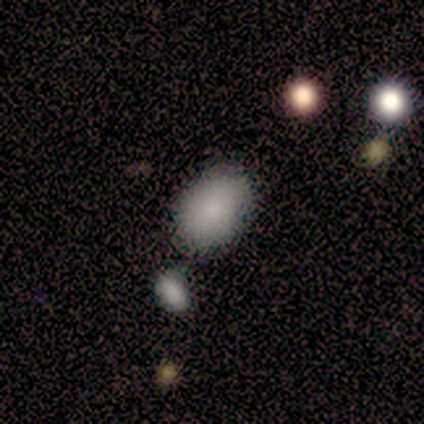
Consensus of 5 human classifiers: Overall: smooth (100%). How rounded: in between (100%). Merging: none (100%).